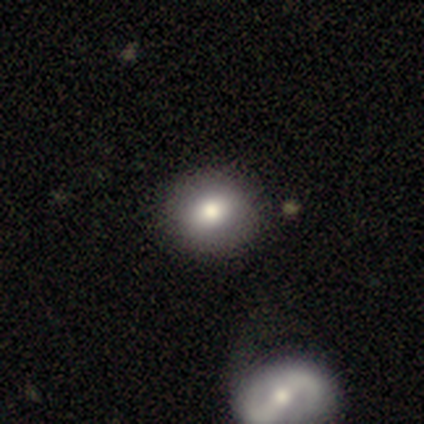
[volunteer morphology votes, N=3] smooth-or-featured: smooth: 67% | featured or disk: 33% | star or artifact: 0%
  how-rounded: round: 50% (tied) | in between: 50% (tied) | cigar-shaped: 0%
  merging: none: 100% | minor disturbance: 0% | major disturbance: 0% | merger: 0%